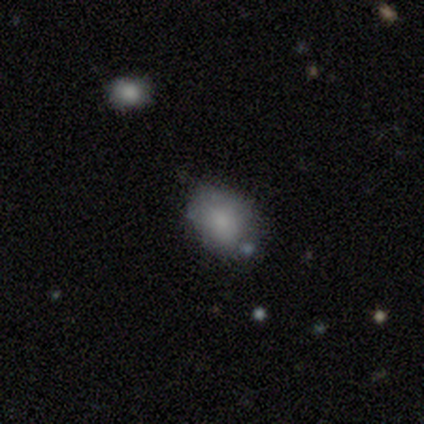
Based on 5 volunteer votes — This appears to be a smooth galaxy with no disk features (100%) that is in between round and cigar-shaped (100%). Merging: none (80%).